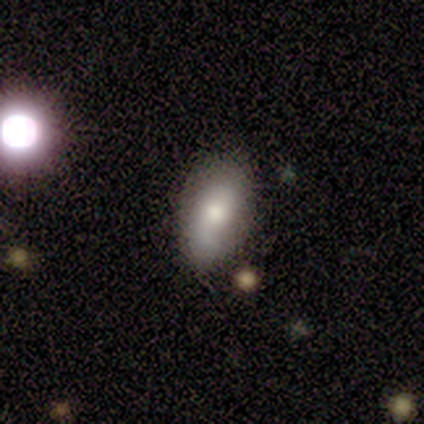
Smooth or featured: smooth — 66% (featured or disk — 29%)
How rounded: in between — 94% (cigar-shaped — 4%)
Merging: none — 40% (minor disturbance — 11%)